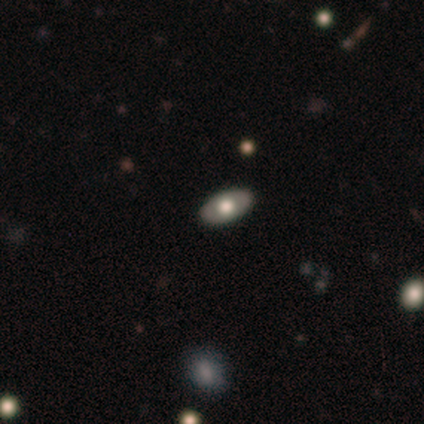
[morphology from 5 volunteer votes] Smooth or featured?
  - featured or disk: 100% *
  - smooth: 0%
  - star or artifact: 0%
Edge-on disk?
  - no: 80% *
  - yes: 20%
Bar?
  - no: 100% *
  - strong: 0%
  - weak: 0%
Spiral arms?
  - no: 100% *
  - yes: 0%
Bulge size?
  - moderate: 50% *
  - dominant: 25%
  - large: 25%
  - small: 0%
  - none: 0%
Merging?
  - none: 100% *
  - minor disturbance: 0%
  - major disturbance: 0%
  - merger: 0%